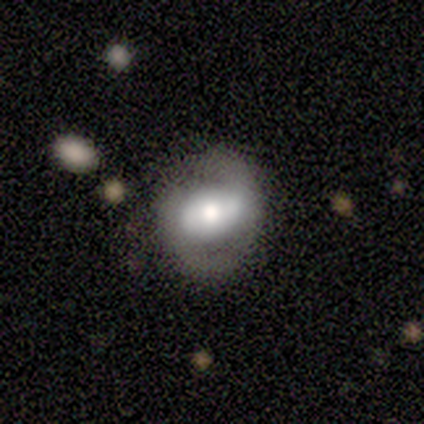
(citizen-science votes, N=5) A smooth galaxy with no disk features (60%) that is round (67%).

Vote fractions:
- Smooth or featured? smooth: 60% / featured or disk: 40% / star or artifact: 0%
- How rounded? round: 67% / in between: 33% / cigar-shaped: 0%
- Merging? none: 80% / minor disturbance: 20% / major disturbance: 0% / merger: 0%